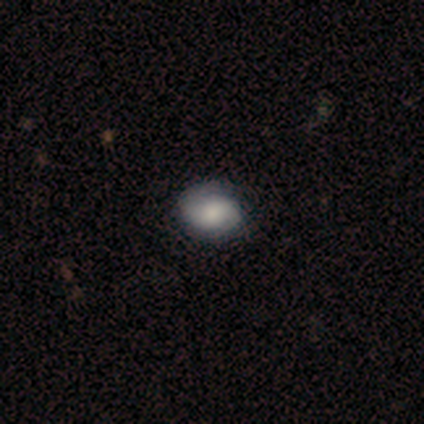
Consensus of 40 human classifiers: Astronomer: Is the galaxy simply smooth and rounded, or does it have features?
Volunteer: smooth — 60% (runner-up: featured or disk, 38%).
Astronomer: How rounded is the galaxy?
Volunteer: in between — 88%.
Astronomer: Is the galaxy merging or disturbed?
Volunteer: none — 59%.